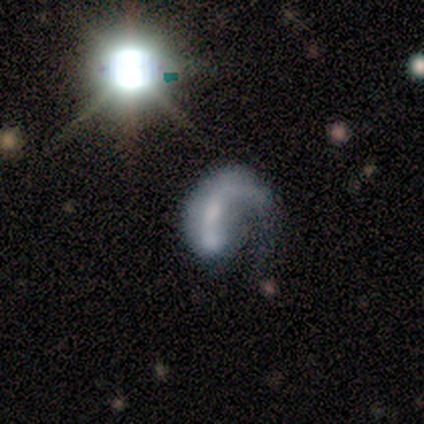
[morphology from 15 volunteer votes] featured or disk 67%, smooth 27%, star or artifact 7%. Down the decision tree: edge-on disk — no (100%); bar — no (100%); spiral arms — yes (60%); spiral arm count — 1 (100%); spiral winding — medium (50%, tied with loose); bulge size — none (40%); merging — major disturbance (71%).